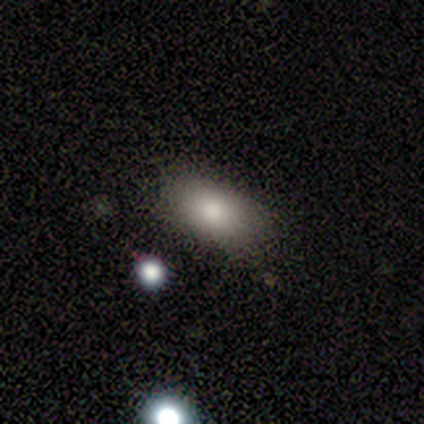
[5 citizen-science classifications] smooth 60%, featured or disk 20%, star or artifact 20%. Down the decision tree: how rounded — in between (100%); merging — none (100%).